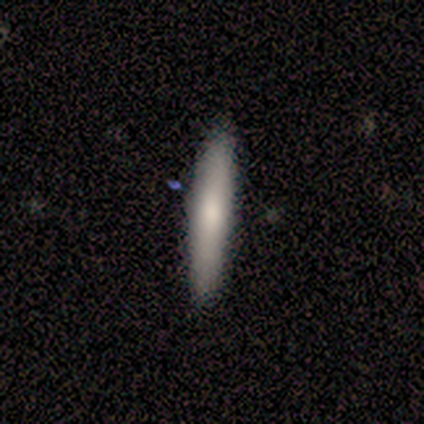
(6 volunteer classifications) Consensus on every question: smooth or featured — smooth (100%); how rounded — cigar-shaped (100%); merging — none (100%).